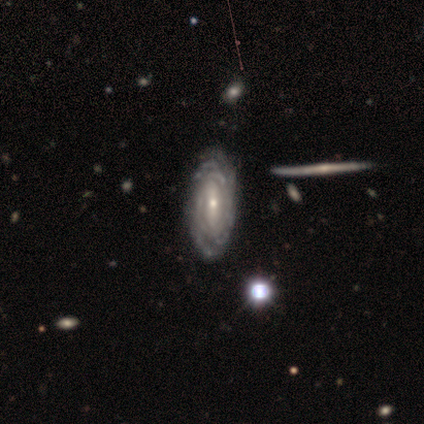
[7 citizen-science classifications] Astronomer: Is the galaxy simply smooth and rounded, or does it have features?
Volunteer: featured or disk — 100%.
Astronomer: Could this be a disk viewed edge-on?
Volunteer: no — 100%.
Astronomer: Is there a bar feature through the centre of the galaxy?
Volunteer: strong — 43% (runner-up: weak, 29%).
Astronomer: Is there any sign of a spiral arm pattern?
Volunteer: yes — 86%.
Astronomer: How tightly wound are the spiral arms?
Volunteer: tight — 100%.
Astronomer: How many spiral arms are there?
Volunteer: can't tell — 67%.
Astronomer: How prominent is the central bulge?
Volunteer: small — 57% (runner-up: moderate, 43%).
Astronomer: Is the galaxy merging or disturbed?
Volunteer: none — 71%.